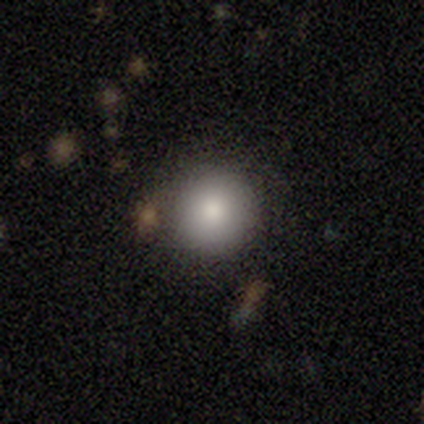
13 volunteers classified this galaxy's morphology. Overall: smooth (85%). How rounded: round (91%). Merging: none (83%).